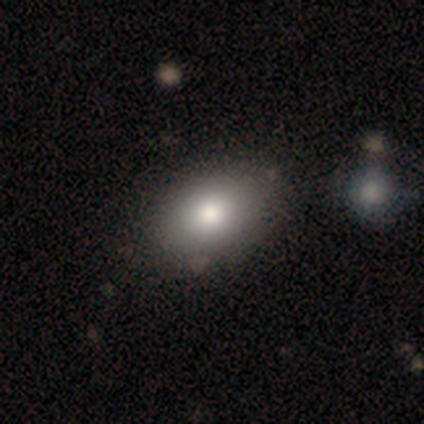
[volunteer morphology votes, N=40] Smooth or featured?
  - smooth: 85% *
  - featured or disk: 8%
  - star or artifact: 8%
How rounded?
  - in between: 79% *
  - round: 18%
  - cigar-shaped: 3%
Merging?
  - none: 73% *
  - minor disturbance: 8%
  - major disturbance: 3%
  - merger: 3%